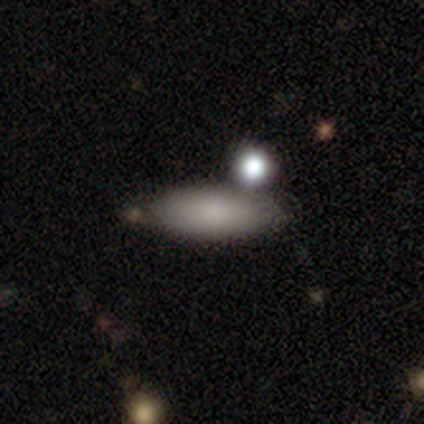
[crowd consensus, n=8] Smooth or featured? smooth (88%)
How rounded? in between (71%)
Merging? none (88%)